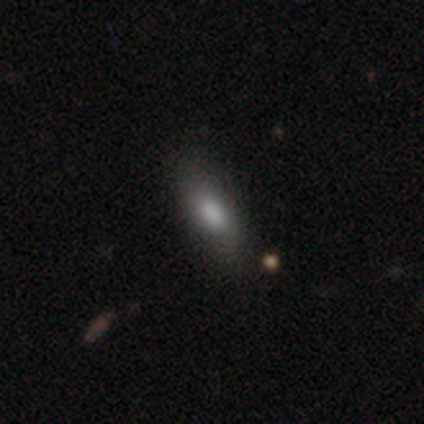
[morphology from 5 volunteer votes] Smooth or featured? 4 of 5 (80%) said smooth. How rounded? 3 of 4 (75%) said in between. Merging? 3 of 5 (60%) said minor disturbance.